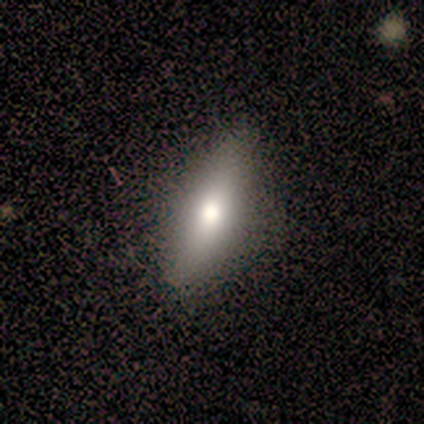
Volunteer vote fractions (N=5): Overall: smooth (100%). How rounded: in between (60%; cigar-shaped 40%). Merging: none (100%).